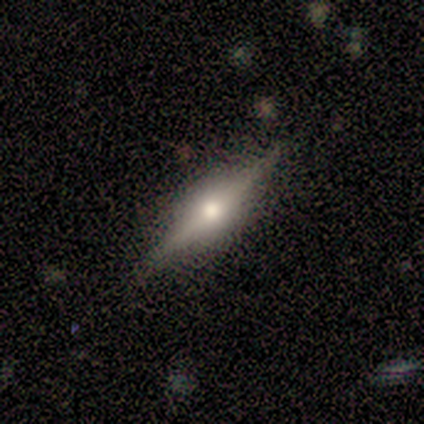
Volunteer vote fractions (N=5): Volunteers were most divided on "smooth or featured" (2-way tie): smooth: 40%, featured or disk: 40%, star or artifact: 20%. More confident: how rounded — cigar-shaped (100%); merging — none (50%).